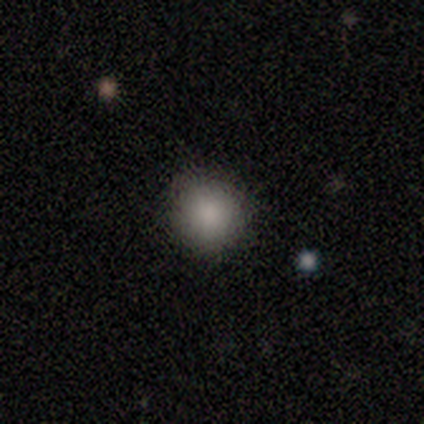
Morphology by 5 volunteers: Volunteers were most divided on "smooth or featured": smooth: 80%, star or artifact: 20%, featured or disk: 0%. More confident: how rounded — round (100%); merging — none (100%).